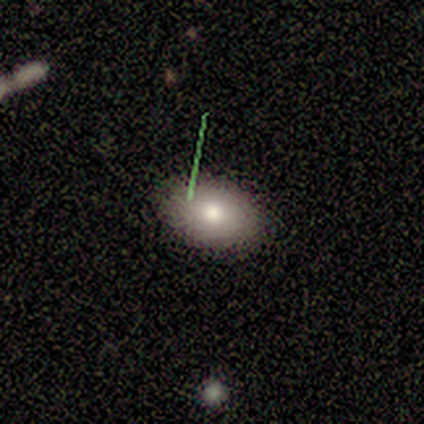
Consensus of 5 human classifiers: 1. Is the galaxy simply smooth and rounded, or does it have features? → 60% smooth, 20% featured or disk, 20% star or artifact.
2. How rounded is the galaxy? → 67% in between, 33% round, 0% cigar-shaped.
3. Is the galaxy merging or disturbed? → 50% none (tied), 50% minor disturbance (tied), 0% major disturbance, 0% merger.